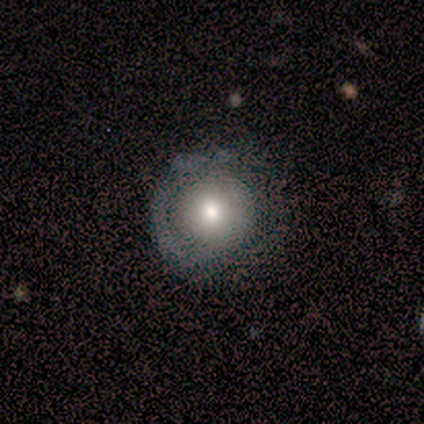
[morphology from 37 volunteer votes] A smooth galaxy with no disk features (51%) that is round (89%).

Vote fractions:
- Smooth or featured? smooth: 51% / featured or disk: 43% / star or artifact: 5%
- How rounded? round: 89% / in between: 11% / cigar-shaped: 0%
- Merging? none: 66% / minor disturbance: 20% / major disturbance: 11% / merger: 3%